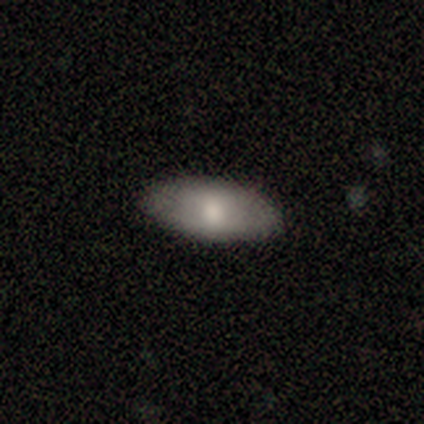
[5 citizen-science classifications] Smooth or featured? 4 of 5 (80%) said smooth. How rounded? 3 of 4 (75%) said in between. Merging? 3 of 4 (75%) said none.